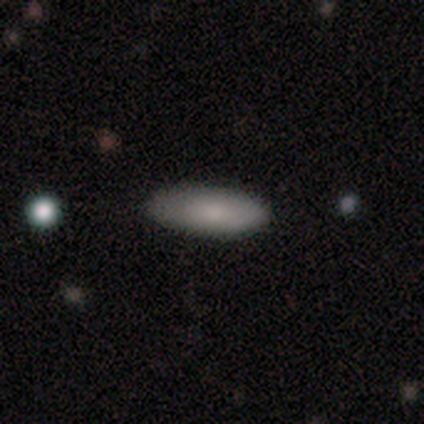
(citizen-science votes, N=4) Smooth or featured? 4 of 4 (100%) said smooth. How rounded? 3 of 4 (75%) said cigar-shaped. Merging? 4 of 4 (100%) said none.